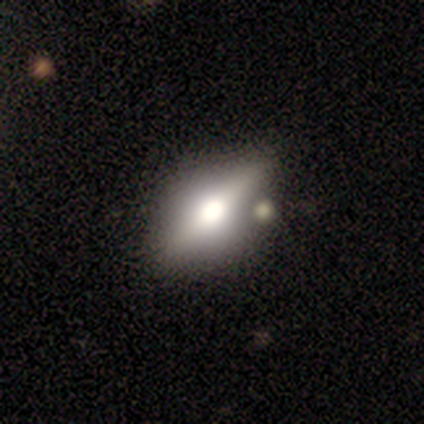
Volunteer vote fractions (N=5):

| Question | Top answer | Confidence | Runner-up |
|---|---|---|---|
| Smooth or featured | featured or disk | 80% | smooth (20%) |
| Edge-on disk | yes | 100% | — |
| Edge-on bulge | rounded | 100% | — |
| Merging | none | 60% | minor disturbance (20%) |